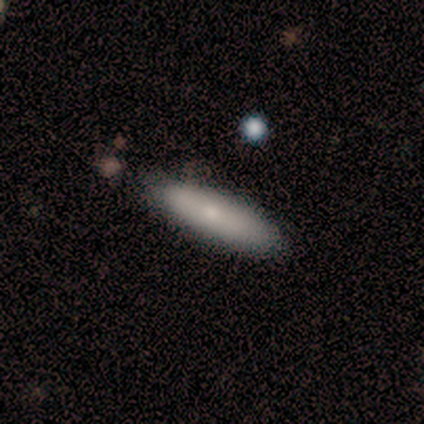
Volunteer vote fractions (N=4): Overall: smooth (100%). How rounded: cigar-shaped (75%). Merging: none (100%).